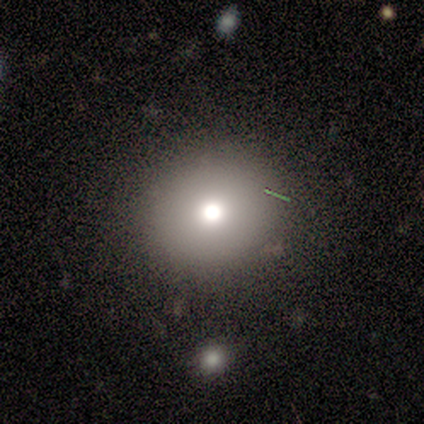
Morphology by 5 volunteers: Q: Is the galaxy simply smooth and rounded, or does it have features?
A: smooth — 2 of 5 (40%, tied with featured or disk).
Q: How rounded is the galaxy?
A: round — 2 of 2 (100%).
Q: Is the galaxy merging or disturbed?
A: none — 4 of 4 (100%).